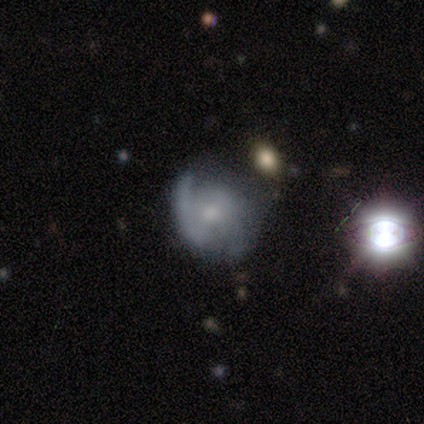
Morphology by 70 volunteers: Smooth or featured: featured or disk — 69% (smooth — 19%)
Edge-on disk: no — 98% (yes — 2%)
Bar: no — 55% (weak — 36%)
Spiral arms: yes — 85% (no — 15%)
Spiral winding: medium — 40% (tight — 38%)
Spiral arm count: 2 — 80% (can't tell — 12%)
Bulge size: moderate — 47% (small — 38%)
Merging: none — 41% (minor disturbance — 33%)